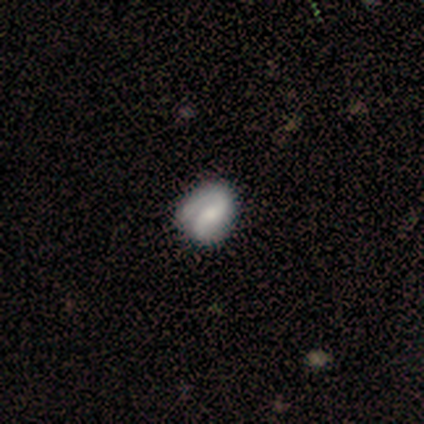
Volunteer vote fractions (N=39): This is clearly a featured or disk galaxy (85%). It is clearly not viewed edge-on (97%). Bar: marginally no (41%). Spiral arm pattern: clearly yes (97%). Spiral arm count: clearly 2 (87%). Spiral winding: marginally tight (39%, tied with medium). Central bulge: marginally moderate (44%). Merging: likely none (63%).